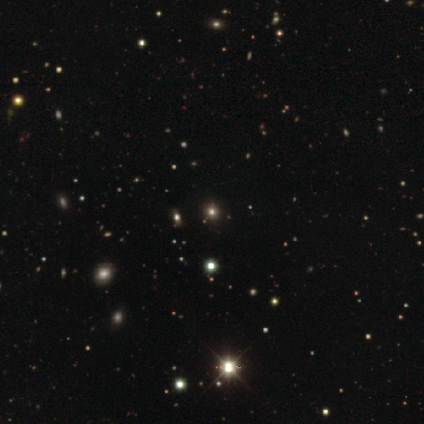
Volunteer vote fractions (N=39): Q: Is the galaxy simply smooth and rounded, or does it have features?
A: star or artifact — 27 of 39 (69%).